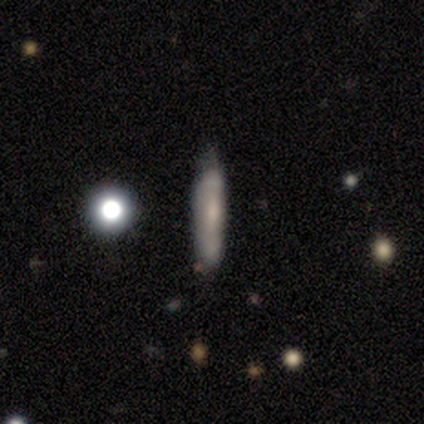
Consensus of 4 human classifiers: featured or disk 75%, smooth 25%, star or artifact 0%. Down the decision tree: edge-on disk — yes (67%); edge-on bulge — boxy (50%, tied with none); merging — minor disturbance (50%).